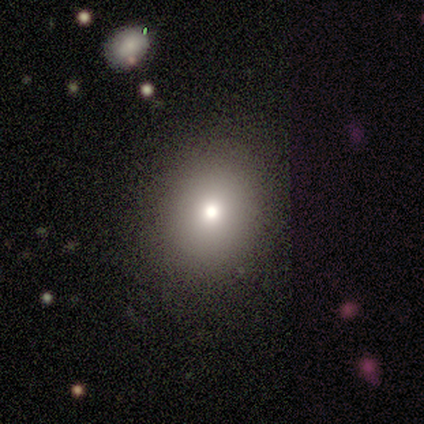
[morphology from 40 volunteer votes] Volunteers were most divided on "how rounded": round: 65%, in between: 35%, cigar-shaped: 0%. More confident: merging — none (97%); smooth or featured — smooth (78%).